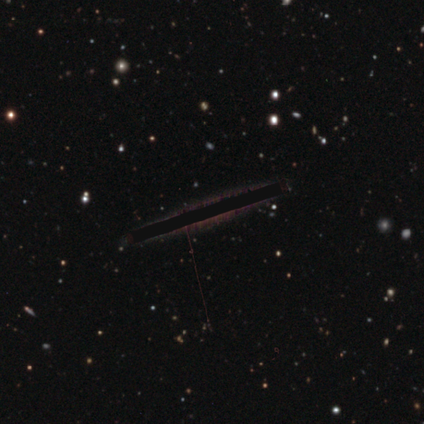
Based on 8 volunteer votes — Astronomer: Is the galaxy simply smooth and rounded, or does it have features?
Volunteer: star or artifact — 62%.